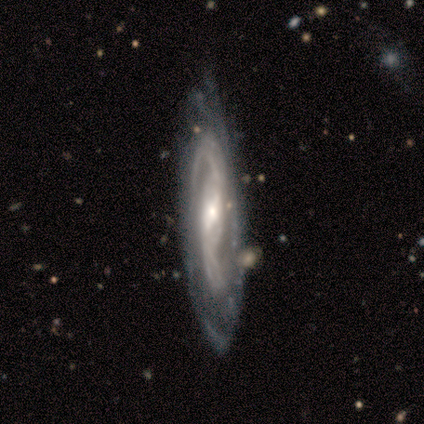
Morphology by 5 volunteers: Smooth or featured? featured or disk (100%)
Edge-on disk? no (100%)
Bar? weak (100%)
Spiral arms? yes (100%)
Spiral winding? tight (60%)
Spiral arm count? 2 (80%)
Bulge size? moderate (40%, tied with small)
Merging? none (80%)